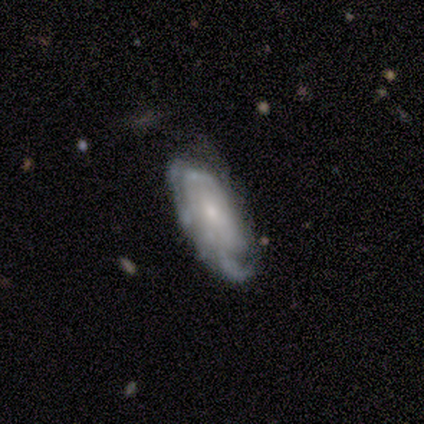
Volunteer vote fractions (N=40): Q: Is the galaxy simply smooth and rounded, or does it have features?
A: featured or disk — 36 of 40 (90%).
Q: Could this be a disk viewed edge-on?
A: no — 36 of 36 (100%).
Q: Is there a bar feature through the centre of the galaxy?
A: no — 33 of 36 (92%).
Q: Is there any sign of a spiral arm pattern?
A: yes — 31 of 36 (86%).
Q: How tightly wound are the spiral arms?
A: tight — 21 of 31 (68%).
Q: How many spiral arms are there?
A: can't tell — 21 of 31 (68%).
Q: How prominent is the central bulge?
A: small — 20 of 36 (56%).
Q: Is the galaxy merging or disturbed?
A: none — 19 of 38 (50%).